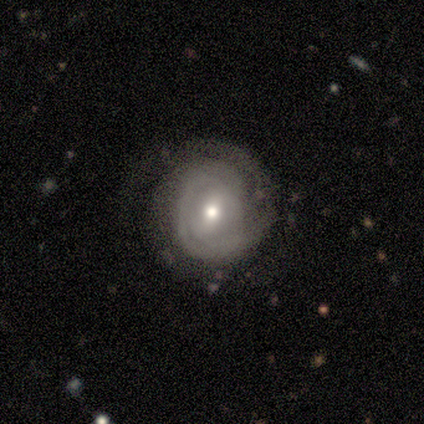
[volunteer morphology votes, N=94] featured or disk 78%, smooth 18%, star or artifact 4%. Down the decision tree: edge-on disk — no (96%); bar — weak (51%); spiral arms — yes (89%); spiral arm count — 2 (39%); spiral winding — tight (79%); bulge size — moderate (70%); merging — none (53%).